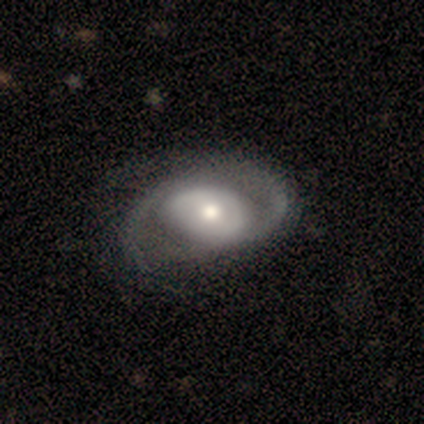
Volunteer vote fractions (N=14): Q: Smooth or featured?
A: featured or disk (93%); runner-up: smooth (7%)
Q: Edge-on disk?
A: no (92%); runner-up: yes (8%)
Q: Bar?
A: no (67%); runner-up: strong (17%)
Q: Spiral arms?
A: yes (92%); runner-up: no (8%)
Q: Spiral winding?
A: medium (55%); runner-up: tight (27%)
Q: Spiral arm count?
A: 2 (91%); runner-up: can't tell (9%)
Q: Bulge size?
A: moderate (50%); runner-up: large (25%)
Q: Merging?
A: none (71%); runner-up: minor disturbance (21%)